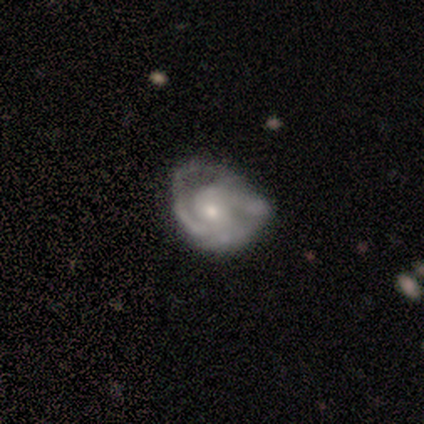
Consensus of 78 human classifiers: featured or disk 86%, smooth 9%, star or artifact 5%. Down the decision tree: edge-on disk — no (100%); bar — no (70%); spiral arms — yes (90%); spiral arm count — 2 (45%); spiral winding — tight (55%); bulge size — small (52%); merging — none (28%).